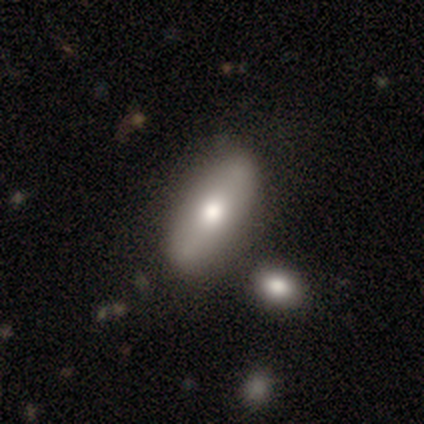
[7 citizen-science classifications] Morphology: type=smooth (71%); roundness=in between (100%); merging=none (71%).